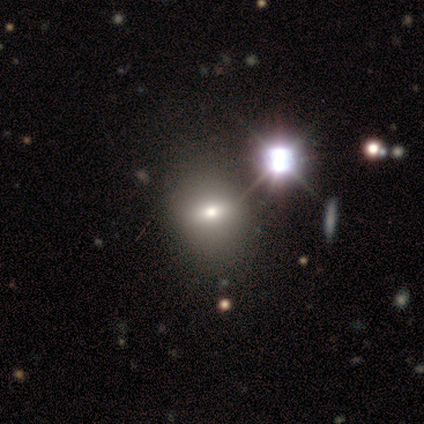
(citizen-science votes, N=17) This appears to be a smooth galaxy with no disk features (41%) that is in between round and cigar-shaped (71%). Merging: none (67%).